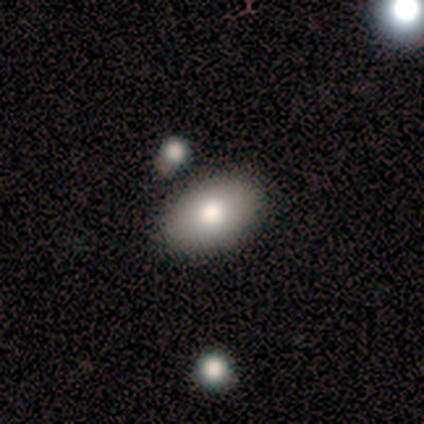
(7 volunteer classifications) smooth_or_featured: smooth (p=0.86) [alt: featured or disk p=0.14]
how_rounded: in between (p=1.00)
merging: none (p=1.00)